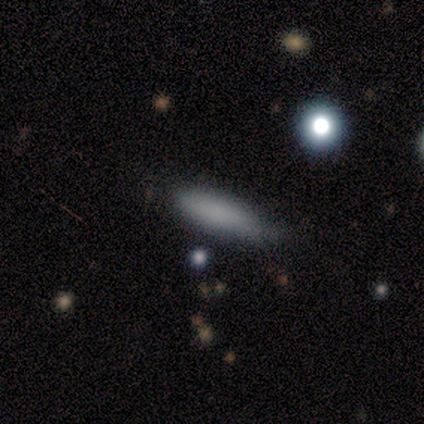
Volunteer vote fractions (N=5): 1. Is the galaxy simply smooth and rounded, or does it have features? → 80% smooth, 20% star or artifact, 0% featured or disk.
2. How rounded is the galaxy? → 75% cigar-shaped, 25% in between, 0% round.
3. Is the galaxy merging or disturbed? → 75% none, 25% minor disturbance, 0% major disturbance, 0% merger.